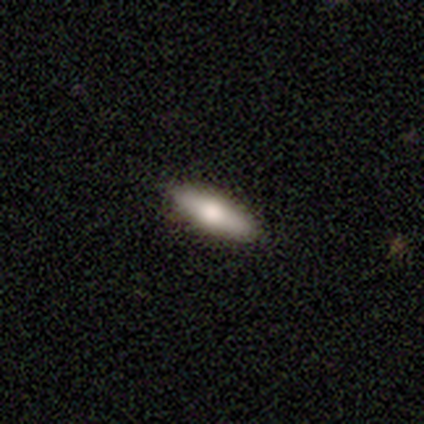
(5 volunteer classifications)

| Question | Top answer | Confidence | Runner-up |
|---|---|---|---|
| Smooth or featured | featured or disk | 60% | smooth (40%) |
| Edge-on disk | yes | 100% | — |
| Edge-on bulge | rounded | 100% | — |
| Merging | none | 100% | — |